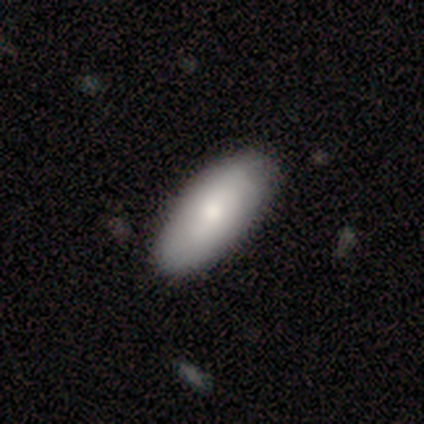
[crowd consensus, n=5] Smooth or featured? 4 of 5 (80%) said smooth. How rounded? 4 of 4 (100%) said in between. Merging? 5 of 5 (100%) said none.